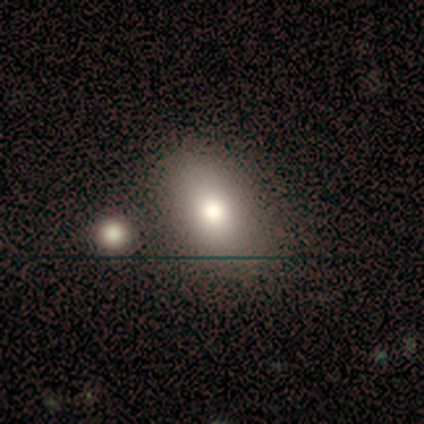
Volunteers were most divided on "merging": none: 80%, minor disturbance: 20%, major disturbance: 0%, merger: 0%. More confident: smooth or featured — smooth (100%); how rounded — in between (100%).